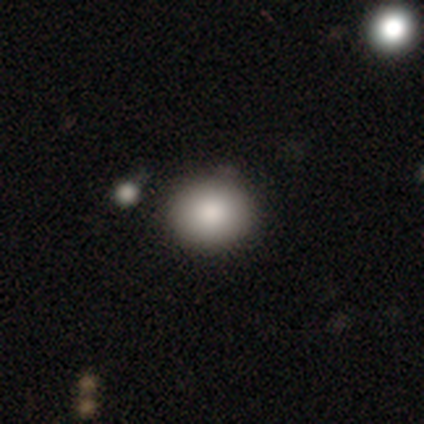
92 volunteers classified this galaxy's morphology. A smooth galaxy with no disk features (78%) that is round (76%). Merging: none (87%).